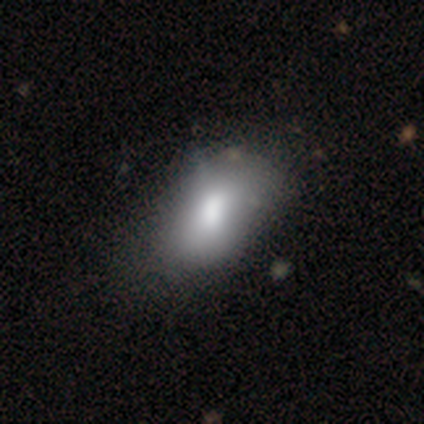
Morphology: type=smooth (68%); roundness=in between (100%); merging=none (42%).